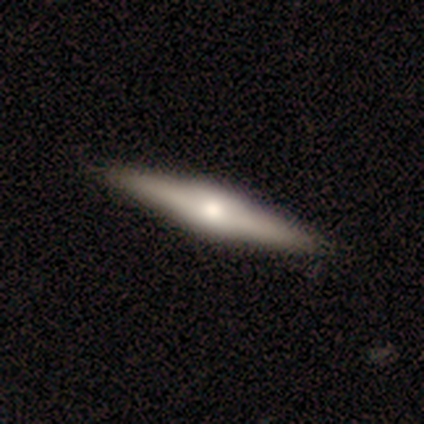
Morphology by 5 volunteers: type=featured or disk (80%); edge-on=yes (100%); edge-on bulge=boxy (75%); merging=none (100%).